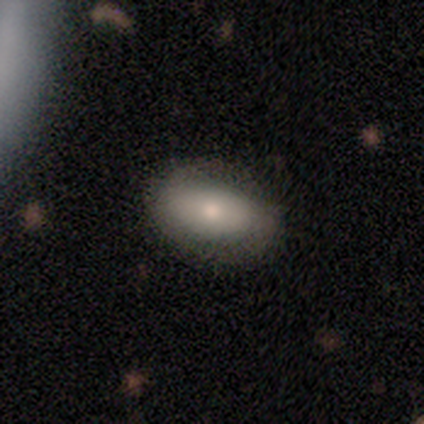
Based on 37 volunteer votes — Morphology: type=smooth (68%); roundness=in between (80%); merging=none (74%).